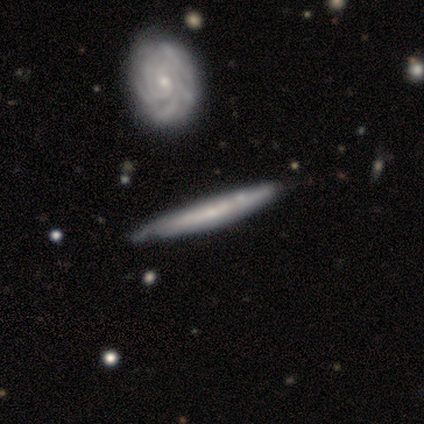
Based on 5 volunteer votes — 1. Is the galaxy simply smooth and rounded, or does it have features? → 60% featured or disk, 40% star or artifact, 0% smooth.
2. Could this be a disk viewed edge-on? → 100% yes, 0% no.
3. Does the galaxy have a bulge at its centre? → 100% none, 0% boxy, 0% rounded.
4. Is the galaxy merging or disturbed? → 33% none (tied), 33% minor disturbance (tied), 33% merger (tied), 0% major disturbance.